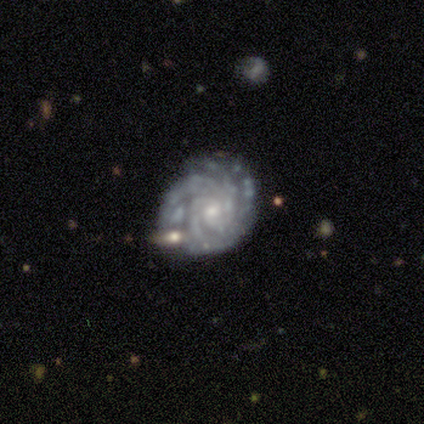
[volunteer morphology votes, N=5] Q: Smooth or featured?
A: featured or disk (100%)
Q: Edge-on disk?
A: no (100%)
Q: Bar?
A: no (60%); runner-up: weak (40%)
Q: Spiral arms?
A: yes (100%)
Q: Spiral winding?
A: tight (100%)
Q: Spiral arm count?
A: 4 (60%); runner-up: 2 (20%)
Q: Bulge size?
A: small (80%); runner-up: moderate (20%)
Q: Merging?
A: none (100%)